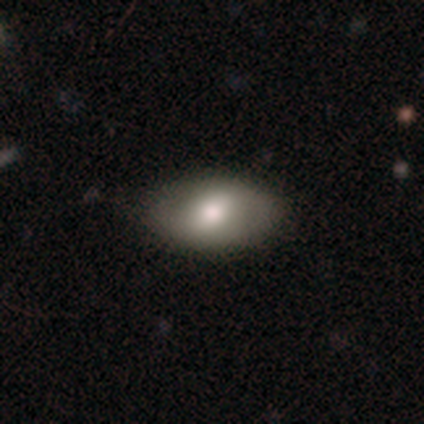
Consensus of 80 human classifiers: This is likely a smooth galaxy (74%). How rounded: clearly in between (92%). Merging: marginally none (43%).